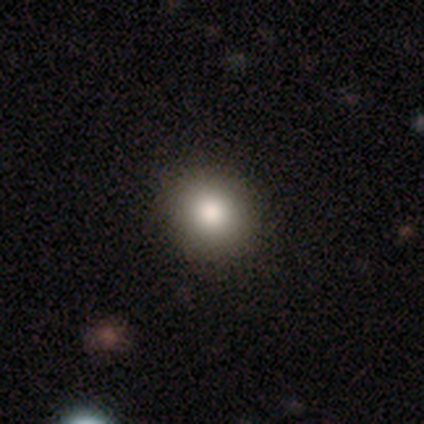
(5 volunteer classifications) smooth-or-featured: smooth: 100% | featured or disk: 0% | star or artifact: 0%
  how-rounded: round: 60% | in between: 40% | cigar-shaped: 0%
  merging: none: 80% | minor disturbance: 20% | major disturbance: 0% | merger: 0%